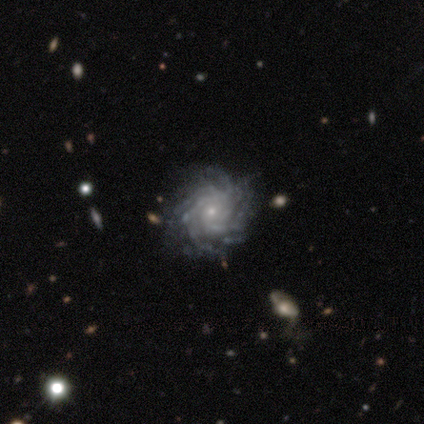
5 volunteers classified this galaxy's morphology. Smooth or featured? featured or disk (100%)
Edge-on disk? no (100%)
Bar? no (60%)
Spiral arms? yes (100%)
Spiral winding? tight (80%)
Spiral arm count? more than 4 (40%, tied with can't tell)
Bulge size? small (60%)
Merging? none (80%)